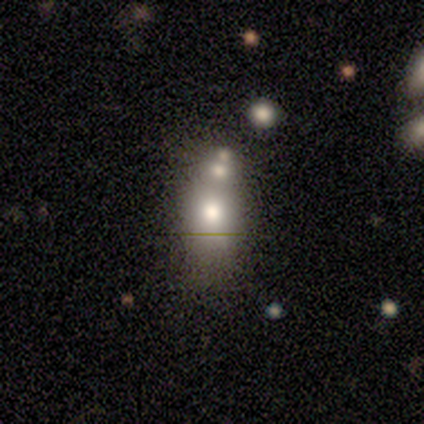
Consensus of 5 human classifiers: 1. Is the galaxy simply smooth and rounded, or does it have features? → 60% star or artifact, 40% smooth, 0% featured or disk.